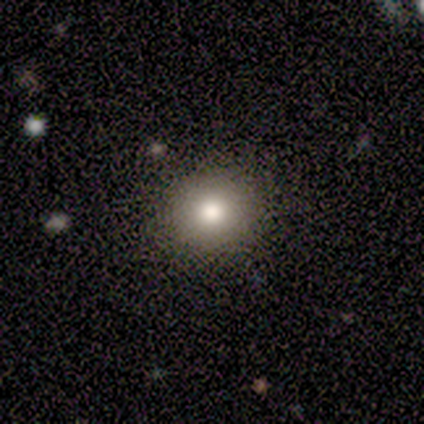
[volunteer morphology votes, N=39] smooth_or_featured: smooth (p=0.82) [alt: star or artifact p=0.10]
how_rounded: round (p=0.94) [alt: in between p=0.06]
merging: none (p=0.94) [alt: minor disturbance p=0.06]